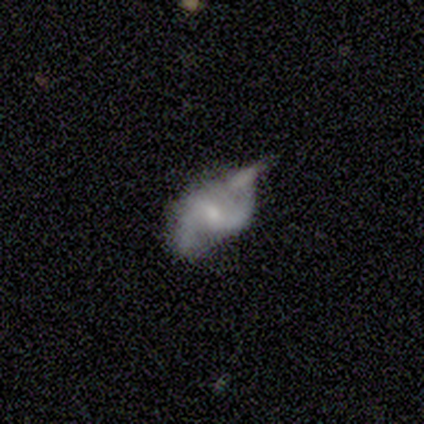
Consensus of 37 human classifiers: smooth_or_featured: featured or disk (p=0.68) [alt: smooth p=0.19]
disk_edge_on: no (p=1.00)
bar: weak (p=0.60) [alt: no p=0.32]
has_spiral_arms: yes (p=0.88) [alt: no p=0.12]
spiral_winding: loose (p=0.55) [alt: medium p=0.36]
spiral_arm_count: 2 (p=0.91) [alt: 1 p=0.05]
bulge_size: small (p=0.72) [alt: moderate p=0.12]
merging: none (p=0.53) [alt: minor disturbance p=0.19]